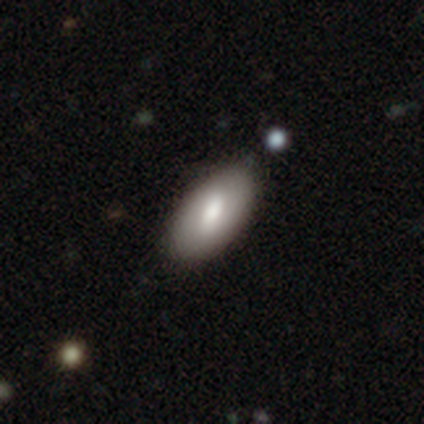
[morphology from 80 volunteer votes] Smooth or featured? smooth (62%)
How rounded? in between (92%)
Merging? none (49%)